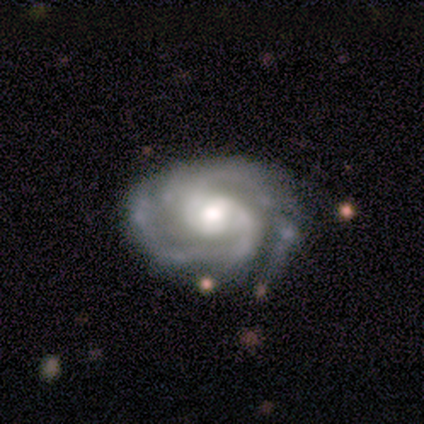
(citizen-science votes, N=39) Smooth or featured? 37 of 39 (95%) said featured or disk. Edge-on disk? 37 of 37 (100%) said no. Bar? 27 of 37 (73%) said no. Spiral arms? 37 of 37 (100%) said yes. Spiral winding? 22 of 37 (59%) said tight. Spiral arm count? 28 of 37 (76%) said 2. Bulge size? 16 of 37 (43%, tied with moderate) said large. Merging? 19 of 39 (49%) said none.